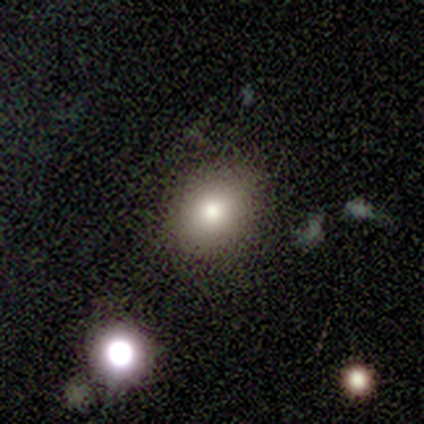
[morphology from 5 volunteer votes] type=smooth (80%); roundness=round (50%, tied with in between); merging=none (75%).